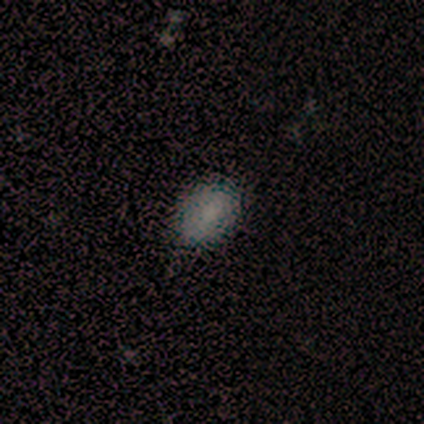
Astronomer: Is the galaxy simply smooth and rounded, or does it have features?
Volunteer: smooth — 100%.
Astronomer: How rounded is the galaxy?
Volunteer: in between — 100%.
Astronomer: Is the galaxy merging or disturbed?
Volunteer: none — 60% (runner-up: minor disturbance, 40%).